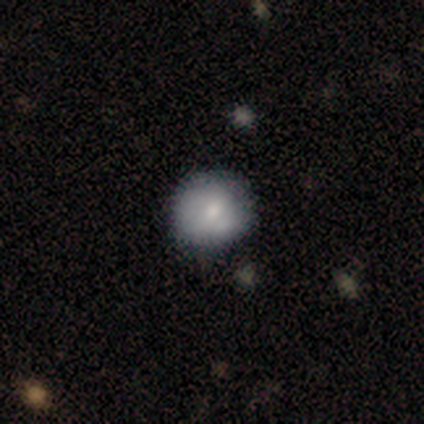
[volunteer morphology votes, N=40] A smooth galaxy with no disk features (70%) that is round (93%).

Vote fractions:
- Smooth or featured? smooth: 70% / featured or disk: 28% / star or artifact: 2%
- How rounded? round: 93% / in between: 7% / cigar-shaped: 0%
- Merging? none: 56% / minor disturbance: 15% / merger: 5% / major disturbance: 3%